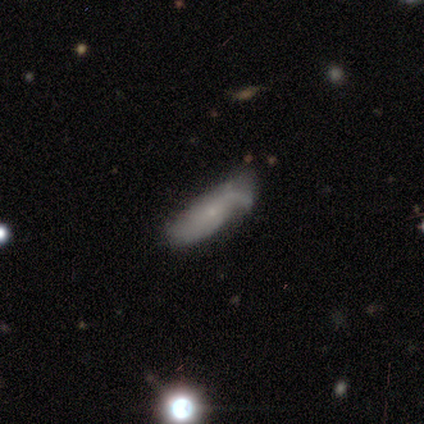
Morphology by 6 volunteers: Smooth or featured? smooth (33%, tied with featured or disk and star or artifact)
How rounded? in between (50%, tied with cigar-shaped)
Merging? minor disturbance (75%)